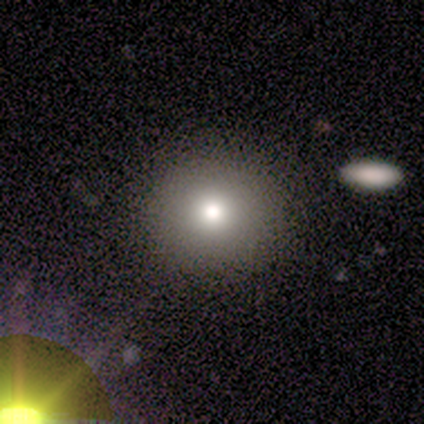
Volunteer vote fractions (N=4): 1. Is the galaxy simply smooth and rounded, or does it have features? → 50% smooth (tied), 50% featured or disk (tied), 0% star or artifact.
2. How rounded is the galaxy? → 100% round, 0% in between, 0% cigar-shaped.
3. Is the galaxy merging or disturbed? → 50% minor disturbance, 25% none, 25% major disturbance, 0% merger.